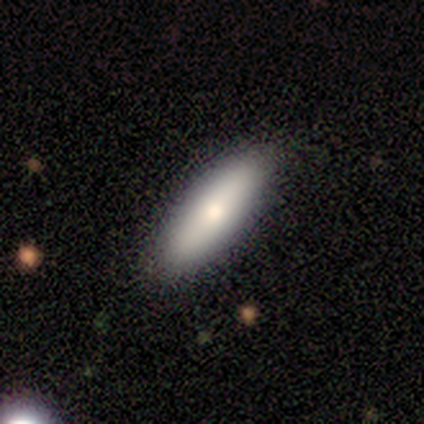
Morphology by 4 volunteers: This is likely a smooth galaxy (75%). How rounded: likely cigar-shaped (67%). Merging: possibly none (50%, tied with minor disturbance).